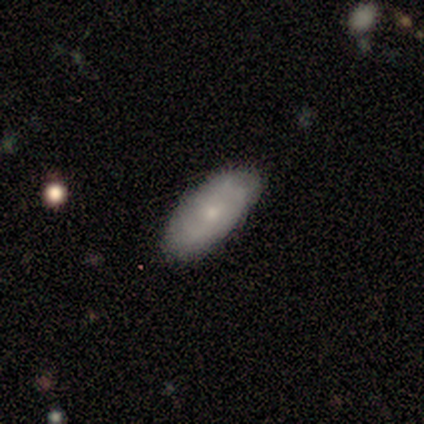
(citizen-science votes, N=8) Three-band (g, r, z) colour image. It shows a smooth galaxy with no disk features (88%) that is in between round and cigar-shaped (100%). Merging: none (100%).